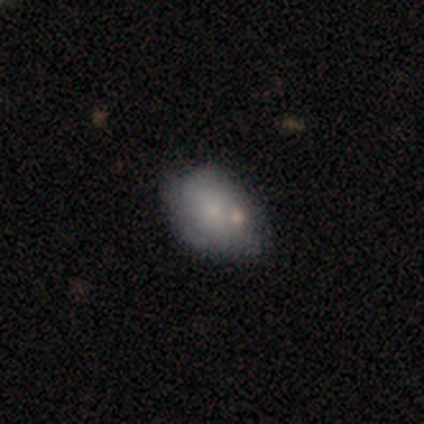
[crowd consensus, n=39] smooth-or-featured: smooth: 67% | featured or disk: 23% | star or artifact: 10%
  how-rounded: in between: 73% | round: 27% | cigar-shaped: 0%
  merging: none: 57% | minor disturbance: 29% | merger: 9% | major disturbance: 6%